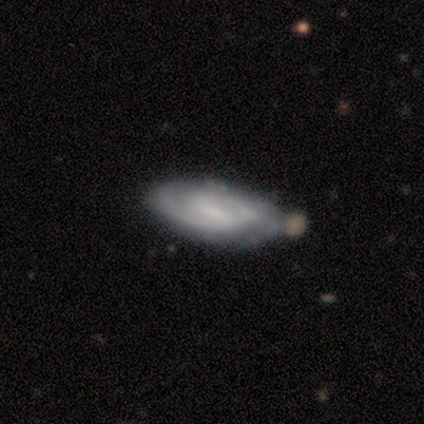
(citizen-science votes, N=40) Smooth or featured?
  - featured or disk: 82% *
  - smooth: 10%
  - star or artifact: 8%
Edge-on disk?
  - no: 82% *
  - yes: 18%
Bar?
  - weak: 74% *
  - no: 19%
  - strong: 7%
Spiral arms?
  - yes: 93% *
  - no: 7%
Spiral winding?
  - medium: 60% *
  - tight: 28%
  - loose: 12%
Spiral arm count?
  - 2: 72% *
  - can't tell: 28%
  - 1: 0%
  - 3: 0%
  - 4: 0%
  - more than 4: 0%
Bulge size?
  - small: 52% *
  - none: 26%
  - moderate: 19%
  - large: 4%
  - dominant: 0%
Merging?
  - none: 70% *
  - minor disturbance: 16%
  - merger: 8%
  - major disturbance: 5%